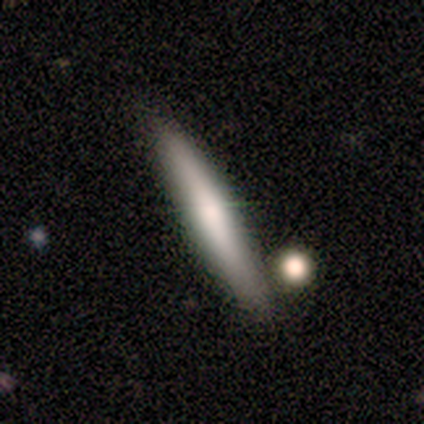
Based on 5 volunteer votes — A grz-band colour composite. It shows a smooth galaxy with no disk features (80%) that is cigar-shaped (100%). Merging: none (60%).